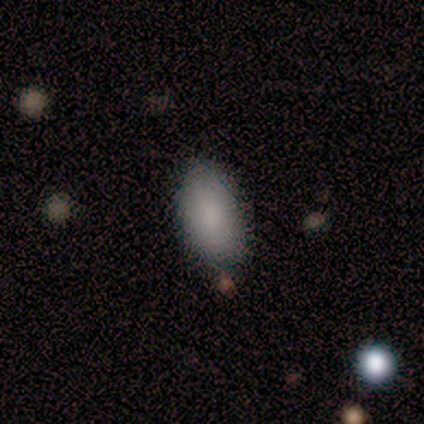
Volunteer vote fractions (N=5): A smooth galaxy with no disk features (100%) that is in between round and cigar-shaped (100%).

Vote fractions:
- Smooth or featured? smooth: 100% / featured or disk: 0% / star or artifact: 0%
- How rounded? in between: 100% / round: 0% / cigar-shaped: 0%
- Merging? none: 80% / minor disturbance: 20% / major disturbance: 0% / merger: 0%